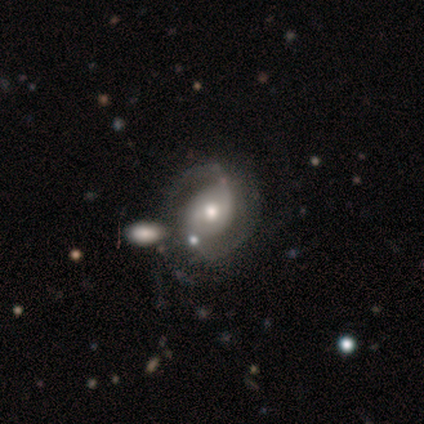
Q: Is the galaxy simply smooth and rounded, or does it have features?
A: featured or disk — 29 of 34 (85%).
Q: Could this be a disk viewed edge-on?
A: no — 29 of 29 (100%).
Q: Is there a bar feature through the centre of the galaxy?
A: no — 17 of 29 (59%).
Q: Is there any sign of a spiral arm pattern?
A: yes — 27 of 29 (93%).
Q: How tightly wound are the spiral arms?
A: medium — 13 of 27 (48%).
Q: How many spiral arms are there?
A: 2 — 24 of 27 (89%).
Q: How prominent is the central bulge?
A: moderate — 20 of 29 (69%).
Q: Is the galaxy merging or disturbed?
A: merger — 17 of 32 (53%).